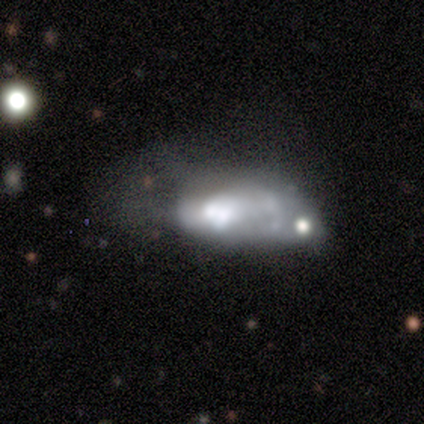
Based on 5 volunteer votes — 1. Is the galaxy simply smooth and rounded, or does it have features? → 60% smooth, 40% featured or disk, 0% star or artifact.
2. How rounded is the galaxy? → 100% in between, 0% round, 0% cigar-shaped.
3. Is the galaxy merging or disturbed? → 60% merger, 20% minor disturbance, 20% major disturbance, 0% none.